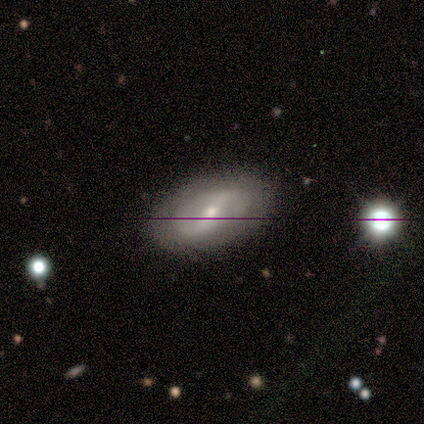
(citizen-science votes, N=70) Overall: featured or disk (71%). Edge-on disk: no (96%). Bar: strong (58%; weak 33%). Spiral arms: yes (54%; no 46%). Spiral arm count: 2 (81%). Spiral winding: medium (42%; tight 35%). Bulge size: moderate (58%; small 42%). Merging: none (82%).